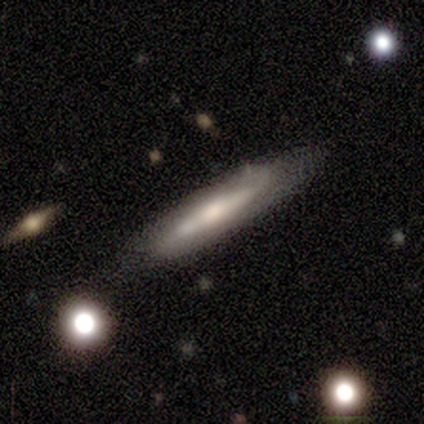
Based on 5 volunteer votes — Smooth or featured?
  - featured or disk: 80% *
  - smooth: 20%
  - star or artifact: 0%
Edge-on disk?
  - no: 75% *
  - yes: 25%
Bar?
  - no: 67% *
  - strong: 33%
  - weak: 0%
Spiral arms?
  - yes: 67% *
  - no: 33%
Spiral winding?
  - tight: 50% * (tied)
  - medium: 50% * (tied)
  - loose: 0%
Spiral arm count?
  - 2: 100% *
  - 1: 0%
  - 3: 0%
  - 4: 0%
  - more than 4: 0%
  - can't tell: 0%
Bulge size?
  - moderate: 67% *
  - small: 33%
  - dominant: 0%
  - large: 0%
  - none: 0%
Merging?
  - none: 80% *
  - minor disturbance: 20%
  - major disturbance: 0%
  - merger: 0%